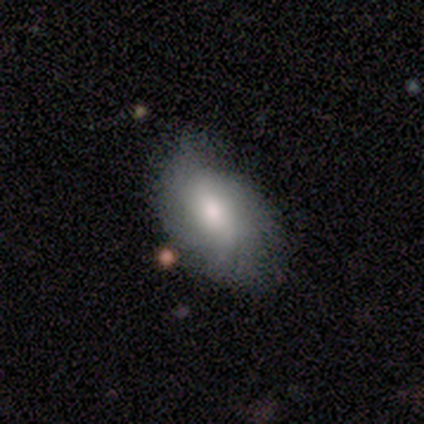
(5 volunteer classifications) A smooth galaxy with no disk features (60%) that is in between round and cigar-shaped (67%). Merging: none (100%).